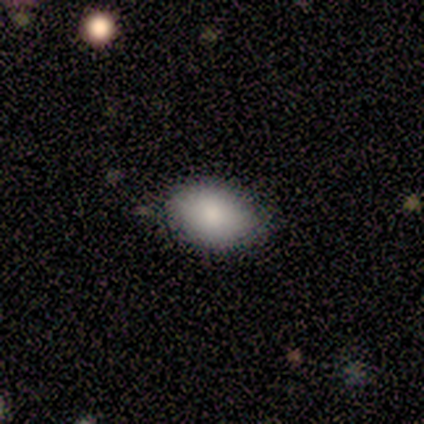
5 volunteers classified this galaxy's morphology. Volunteers were most divided on "smooth or featured": smooth: 80%, featured or disk: 20%, star or artifact: 0%. More confident: how rounded — in between (100%); merging — none (100%).